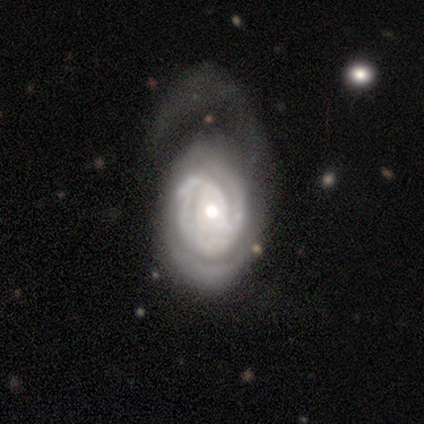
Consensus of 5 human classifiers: This is clearly a featured or disk galaxy (100%). It is clearly not viewed edge-on (80%). Bar: likely no (75%). Spiral arm pattern: clearly yes (100%). Spiral arm count: possibly can't tell (50%). Spiral winding: possibly tight (50%, tied with medium). Central bulge: possibly moderate (50%). Merging: clearly major disturbance (80%).